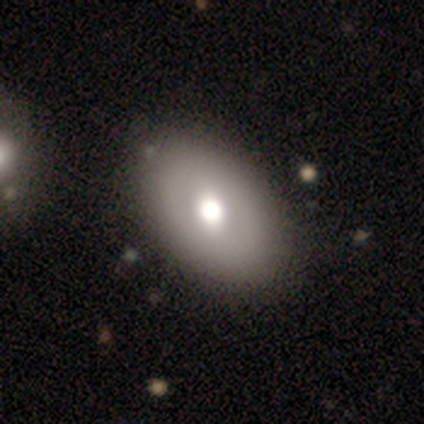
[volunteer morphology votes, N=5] smooth-or-featured: featured or disk: 60% | smooth: 20% | star or artifact: 20%
  disk-edge-on: no: 100% | yes: 0%
    bar: no: 67% | strong: 33% | weak: 0%
    has-spiral-arms: no: 100% | yes: 0%
    bulge-size: moderate: 67% | large: 33% | dominant: 0% | small: 0% | none: 0%
  merging: none: 75% | merger: 25% | minor disturbance: 0% | major disturbance: 0%